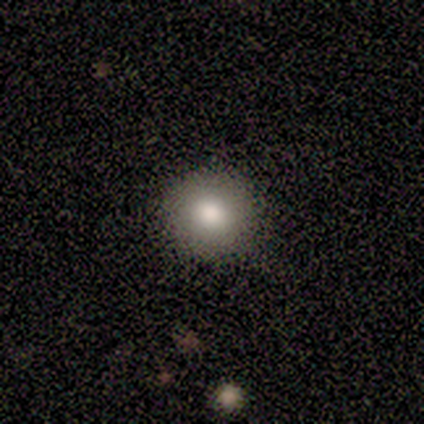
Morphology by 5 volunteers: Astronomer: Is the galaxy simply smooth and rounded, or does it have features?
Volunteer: smooth — 60%.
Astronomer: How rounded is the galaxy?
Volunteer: round — 100%.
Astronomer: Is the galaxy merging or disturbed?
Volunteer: none — 100%.